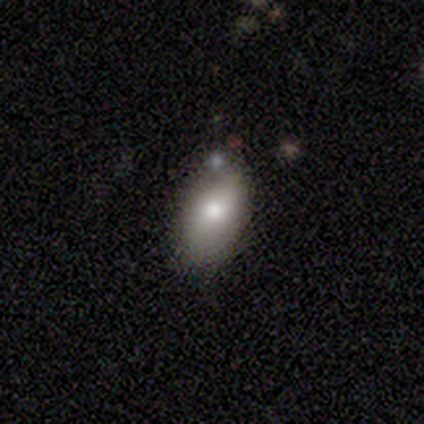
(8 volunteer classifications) This is likely a smooth galaxy (75%). How rounded: clearly in between (100%). Merging: likely none (71%).